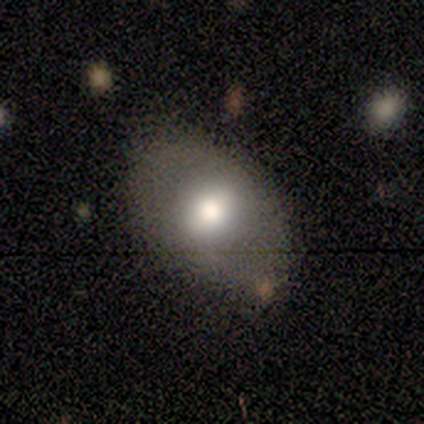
Overall: smooth (80%). How rounded: in between (100%). Merging: none (100%).